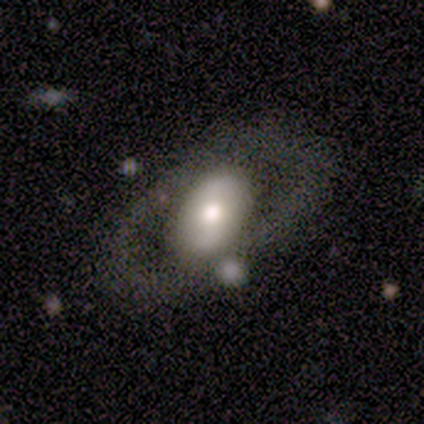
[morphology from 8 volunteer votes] Smooth or featured: smooth — 62% (featured or disk — 25%)
How rounded: in between — 100%
Merging: none — 71% (minor disturbance — 29%)